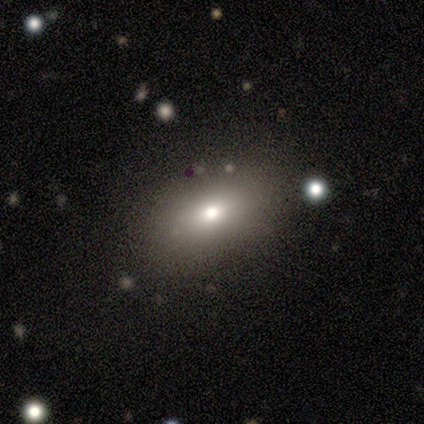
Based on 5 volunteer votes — Smooth or featured?
  - smooth: 80% *
  - featured or disk: 20%
  - star or artifact: 0%
How rounded?
  - in between: 100% *
  - round: 0%
  - cigar-shaped: 0%
Merging?
  - none: 100% *
  - minor disturbance: 0%
  - major disturbance: 0%
  - merger: 0%